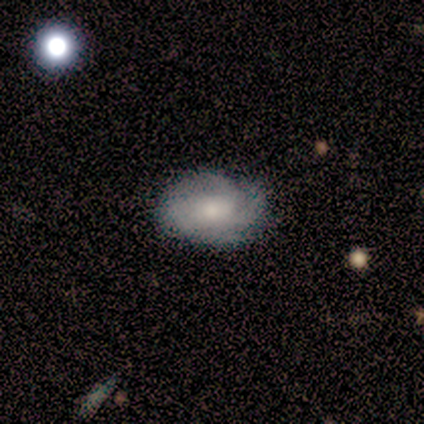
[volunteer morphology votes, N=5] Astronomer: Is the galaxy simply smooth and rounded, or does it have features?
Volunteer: featured or disk — 80%.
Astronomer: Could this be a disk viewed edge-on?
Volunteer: no — 100%.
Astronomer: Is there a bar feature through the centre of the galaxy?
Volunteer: no — 100%.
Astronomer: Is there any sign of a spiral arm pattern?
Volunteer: yes — 75%.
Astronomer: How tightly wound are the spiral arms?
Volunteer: tight — 100%.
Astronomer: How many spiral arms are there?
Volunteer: can't tell — 67%.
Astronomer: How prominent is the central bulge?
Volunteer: moderate — 50%.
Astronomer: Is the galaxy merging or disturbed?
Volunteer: none — 80%.